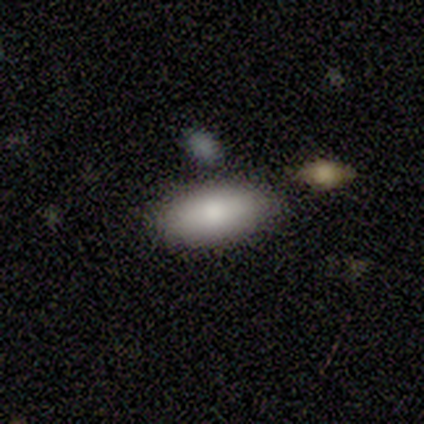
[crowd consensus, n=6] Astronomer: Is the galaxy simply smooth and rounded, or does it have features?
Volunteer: smooth — 100%.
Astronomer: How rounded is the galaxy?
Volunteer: in between — 100%.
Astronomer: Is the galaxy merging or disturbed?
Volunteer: none — 100%.